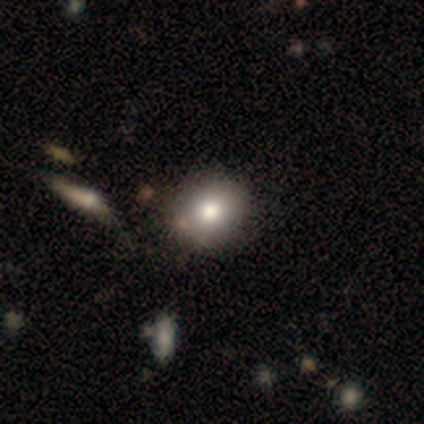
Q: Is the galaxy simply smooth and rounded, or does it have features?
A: smooth — 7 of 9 (78%).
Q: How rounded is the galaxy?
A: round — 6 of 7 (86%).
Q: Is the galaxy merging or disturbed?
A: none — 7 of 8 (88%).